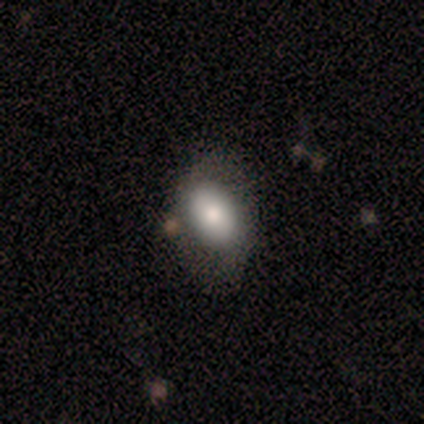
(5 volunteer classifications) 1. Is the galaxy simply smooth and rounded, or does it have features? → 60% smooth, 20% featured or disk, 20% star or artifact.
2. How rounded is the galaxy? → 100% in between, 0% round, 0% cigar-shaped.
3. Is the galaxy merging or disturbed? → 100% none, 0% minor disturbance, 0% major disturbance, 0% merger.